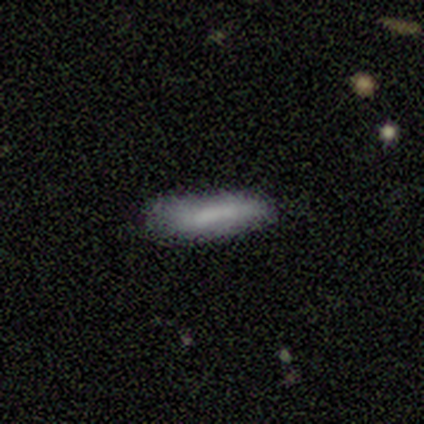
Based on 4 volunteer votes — This appears to be a smooth galaxy with no disk features (100%) that is in between round and cigar-shaped (75%). Merging: none (50%, tied with minor disturbance).